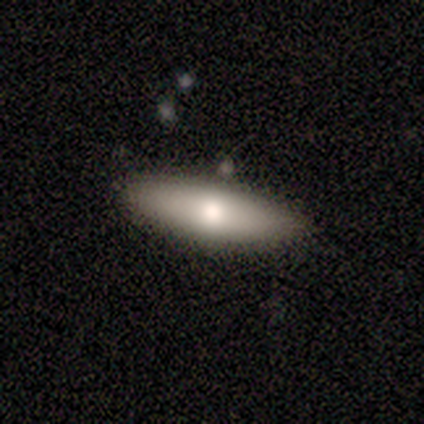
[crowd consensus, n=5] Overall: smooth (80%). How rounded: cigar-shaped (75%). Merging: none (100%).